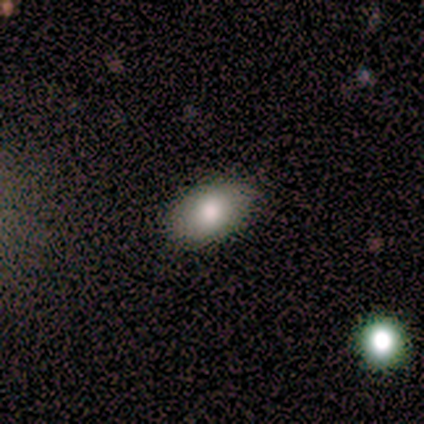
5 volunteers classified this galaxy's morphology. Smooth or featured?
  - smooth: 80% *
  - featured or disk: 20%
  - star or artifact: 0%
How rounded?
  - in between: 100% *
  - round: 0%
  - cigar-shaped: 0%
Merging?
  - none: 100% *
  - minor disturbance: 0%
  - major disturbance: 0%
  - merger: 0%